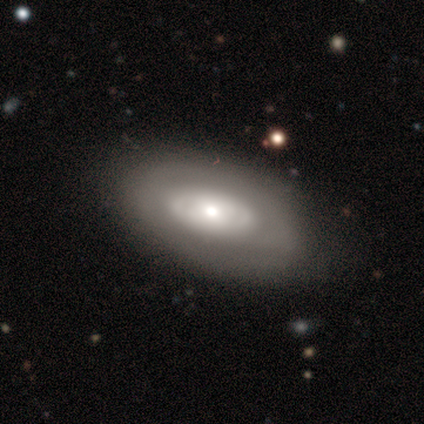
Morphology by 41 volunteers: Smooth or featured? featured or disk (56%)
Edge-on disk? no (96%)
Bar? no (91%)
Spiral arms? no (64%)
Bulge size? moderate (73%)
Merging? none (46%)